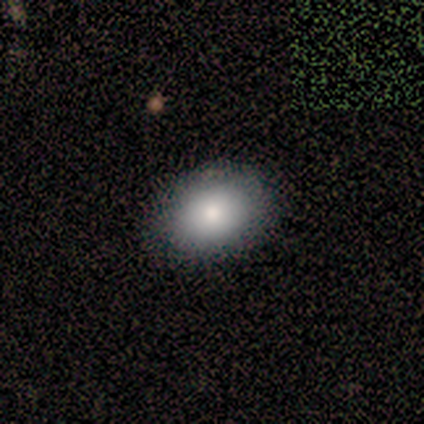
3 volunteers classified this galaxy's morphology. Volunteers were most divided on "how rounded": round: 67%, in between: 33%, cigar-shaped: 0%. More confident: smooth or featured — smooth (100%); merging — none (100%).